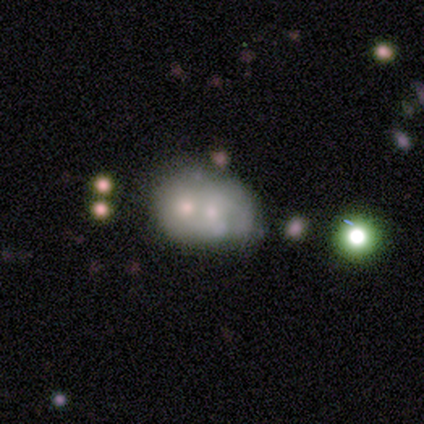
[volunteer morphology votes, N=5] A featured or disk galaxy (60%) with no bar (67%), no spiral arms (100%) and a small central bulge (67%).

Vote fractions:
- Smooth or featured? featured or disk: 60% / smooth: 20% / star or artifact: 20%
- Edge-on disk? no: 100% / yes: 0%
- Bar? no: 67% / strong: 33% / weak: 0%
- Spiral arms? no: 100% / yes: 0%
- Bulge size? small: 67% / moderate: 33% / dominant: 0% / large: 0% / none: 0%
- Merging? merger: 75% / none: 25% / minor disturbance: 0% / major disturbance: 0%